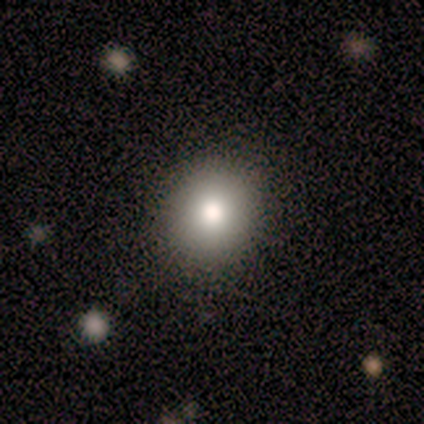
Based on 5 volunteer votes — smooth_or_featured: smooth (p=0.40) [tied with: featured or disk p=0.40]
how_rounded: round (p=1.00)
merging: none (p=0.50) [tied with: minor disturbance p=0.50]